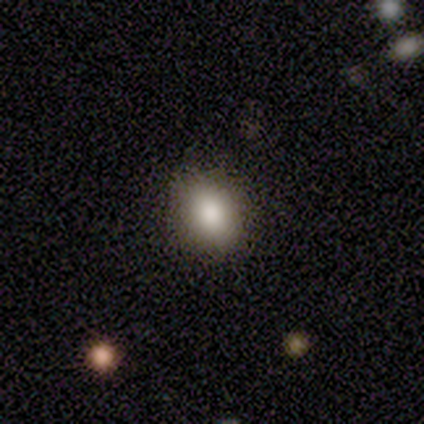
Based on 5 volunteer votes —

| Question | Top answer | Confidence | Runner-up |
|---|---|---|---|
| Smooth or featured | smooth | 80% | star or artifact (20%) |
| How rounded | in between | 75% | round (25%) |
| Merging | none | 75% | major disturbance (25%) |